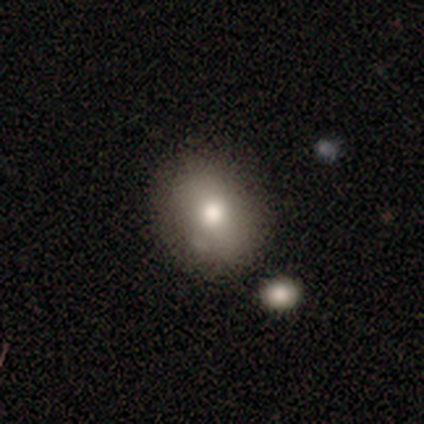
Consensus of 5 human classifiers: A smooth galaxy with no disk features (60%) that is round (67%). Merging: none (80%).